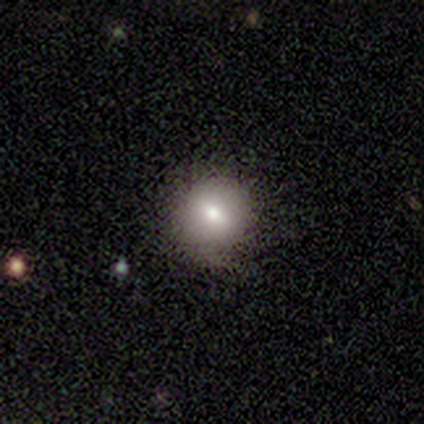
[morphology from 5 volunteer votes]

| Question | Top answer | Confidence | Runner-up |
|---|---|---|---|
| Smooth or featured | smooth | 60% | star or artifact (40%) |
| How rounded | round | 67% | in between (33%) |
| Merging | none | 100% | — |